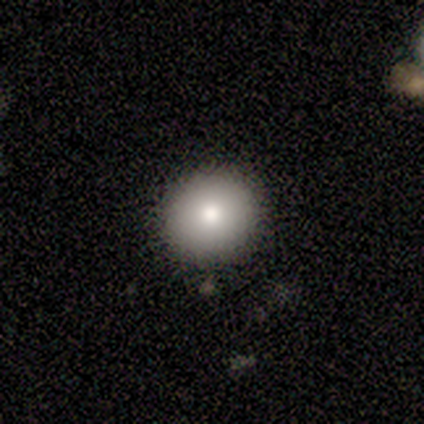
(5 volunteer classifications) smooth 80%, featured or disk 20%, star or artifact 0%. Down the decision tree: how rounded — round (75%); merging — none (80%).